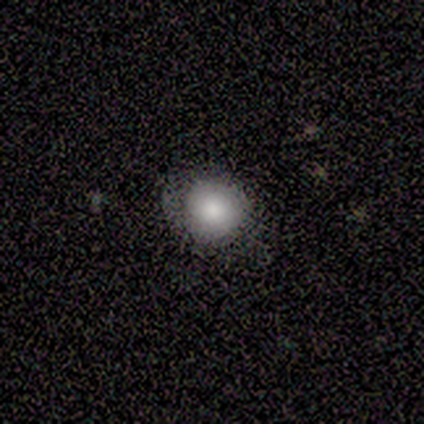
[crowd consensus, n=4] Overall: smooth (75%). How rounded: round (100%). Merging: none (75%).